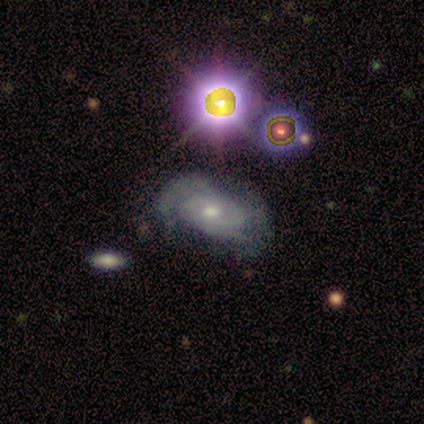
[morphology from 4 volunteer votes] featured or disk 100%, smooth 0%, star or artifact 0%. Down the decision tree: edge-on disk — no (100%); bar — no (75%); spiral arms — yes (50%, tied with no); spiral arm count — 3 (50%, tied with can't tell); spiral winding — tight (50%, tied with medium); bulge size — moderate (50%, tied with small); merging — minor disturbance (50%).